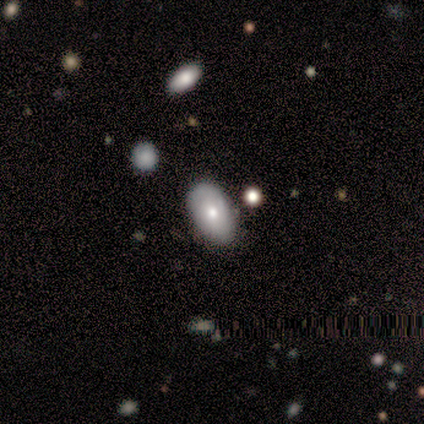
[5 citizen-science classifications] smooth-or-featured: featured or disk: 60% | smooth: 40% | star or artifact: 0%
  disk-edge-on: no: 100% | yes: 0%
    bar: no: 100% | strong: 0% | weak: 0%
    has-spiral-arms: yes: 67% | no: 33%
      spiral-winding: tight: 50% (tied) | loose: 50% (tied) | medium: 0%
      spiral-arm-count: 2: 50% (tied) | can't tell: 50% (tied) | 1: 0% | 3: 0% | 4: 0% | more than 4: 0%
    bulge-size: small: 67% | moderate: 33% | dominant: 0% | large: 0% | none: 0%
  merging: none: 80% | minor disturbance: 20% | major disturbance: 0% | merger: 0%